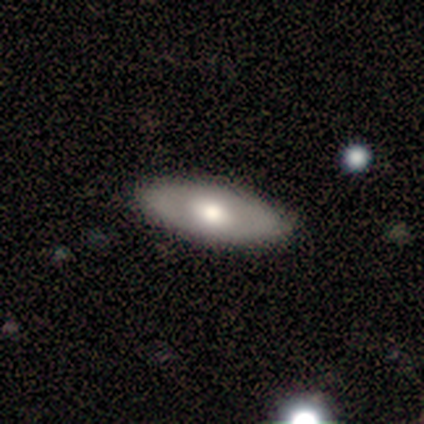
A smooth galaxy with no disk features (59%) that is in between round and cigar-shaped (85%).

Vote fractions:
- Smooth or featured? smooth: 59% / featured or disk: 37% / star or artifact: 3%
- How rounded? in between: 85% / cigar-shaped: 13% / round: 2%
- Merging? none: 80% / minor disturbance: 18% / major disturbance: 1% / merger: 1%